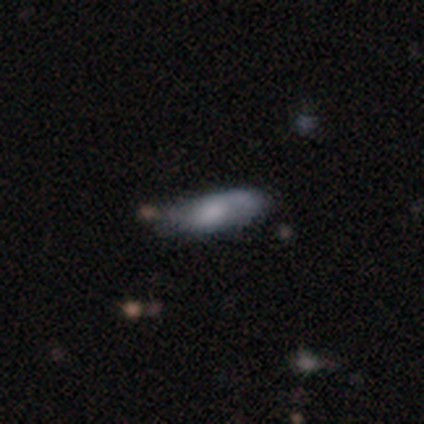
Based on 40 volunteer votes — Q: Smooth or featured?
A: smooth (68%); runner-up: featured or disk (28%)
Q: How rounded?
A: in between (67%); runner-up: cigar-shaped (33%)
Q: Merging?
A: none (61%); runner-up: minor disturbance (32%)